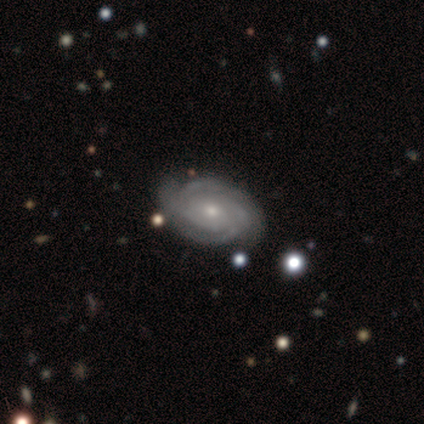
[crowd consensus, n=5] Smooth or featured? 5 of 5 (100%) said featured or disk. Edge-on disk? 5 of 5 (100%) said no. Bar? 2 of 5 (40%, tied with no) said weak. Spiral arms? 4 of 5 (80%) said yes. Spiral winding? 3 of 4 (75%) said tight. Spiral arm count? 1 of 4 (25%, tied with 2, 4 and can't tell) said 1. Bulge size? 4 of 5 (80%) said small. Merging? 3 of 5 (60%) said none.